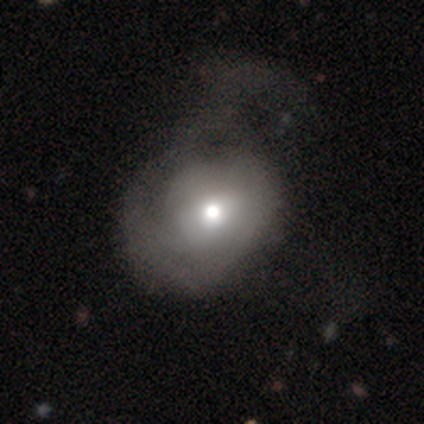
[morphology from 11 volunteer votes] Q: Smooth or featured?
A: smooth (64%); runner-up: featured or disk (36%)
Q: How rounded?
A: round (57%); runner-up: in between (43%)
Q: Merging?
A: major disturbance (64%); runner-up: minor disturbance (18%)